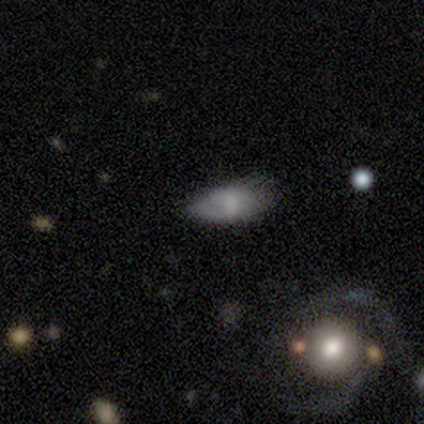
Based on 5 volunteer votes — A smooth galaxy with no disk features (60%) that is in between round and cigar-shaped (100%).

Vote fractions:
- Smooth or featured? smooth: 60% / featured or disk: 40% / star or artifact: 0%
- How rounded? in between: 100% / round: 0% / cigar-shaped: 0%
- Merging? none: 60% / minor disturbance: 40% / major disturbance: 0% / merger: 0%